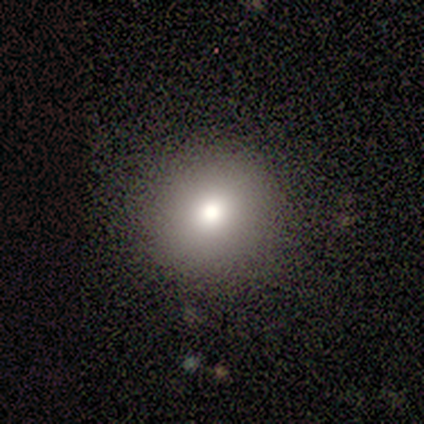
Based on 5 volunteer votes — smooth 80%, star or artifact 20%, featured or disk 0%. Down the decision tree: how rounded — round (75%); merging — none (100%).